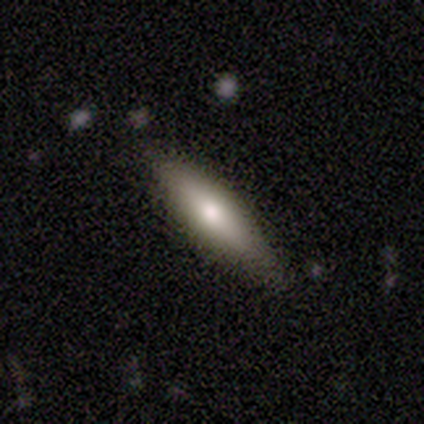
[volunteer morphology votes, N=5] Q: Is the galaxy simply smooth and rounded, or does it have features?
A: smooth — 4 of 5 (80%).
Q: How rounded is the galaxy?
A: in between — 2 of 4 (50%, tied with cigar-shaped).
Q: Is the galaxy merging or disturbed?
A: none — 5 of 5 (100%).